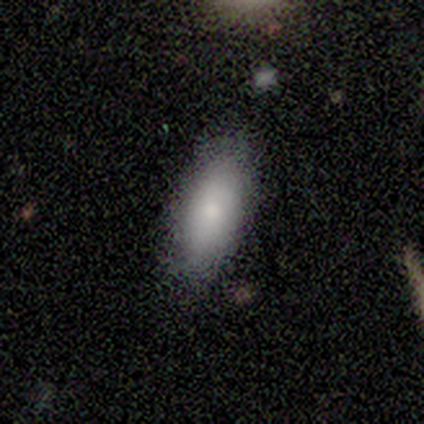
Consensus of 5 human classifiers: smooth-or-featured: smooth: 80% | featured or disk: 20% | star or artifact: 0%
  how-rounded: in between: 100% | round: 0% | cigar-shaped: 0%
  merging: none: 100% | minor disturbance: 0% | major disturbance: 0% | merger: 0%